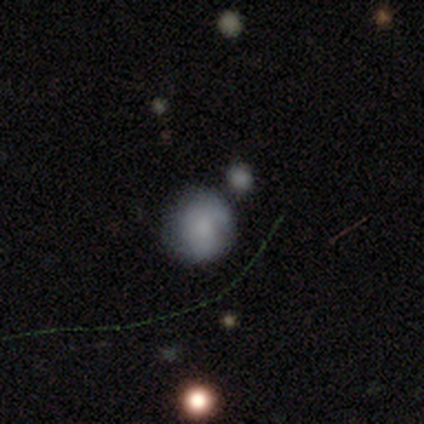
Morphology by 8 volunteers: smooth 88%, featured or disk 12%, star or artifact 0%. Down the decision tree: how rounded — round (100%); merging — none (62%).